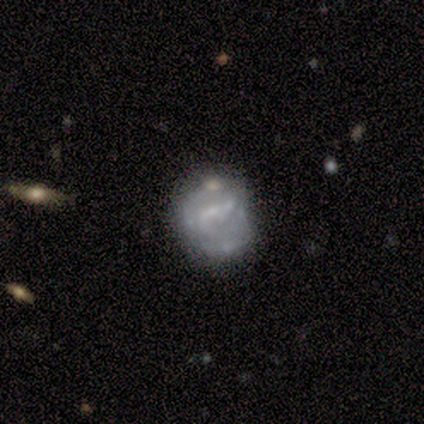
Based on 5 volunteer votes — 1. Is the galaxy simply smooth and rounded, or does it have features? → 80% featured or disk, 20% smooth, 0% star or artifact.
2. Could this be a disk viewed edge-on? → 100% no, 0% yes.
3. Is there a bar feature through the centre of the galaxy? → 50% strong (tied), 50% no (tied), 0% weak.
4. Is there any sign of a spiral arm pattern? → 75% no, 25% yes.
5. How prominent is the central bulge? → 50% small, 25% moderate, 25% none, 0% dominant, 0% large.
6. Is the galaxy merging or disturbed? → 60% minor disturbance, 20% none, 20% major disturbance, 0% merger.